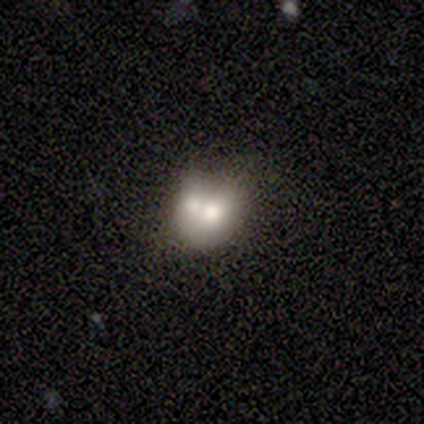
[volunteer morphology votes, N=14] Q: Smooth or featured?
A: smooth (57%); runner-up: featured or disk (43%)
Q: How rounded?
A: round (75%); runner-up: in between (25%)
Q: Merging?
A: merger (50%); runner-up: none (36%)